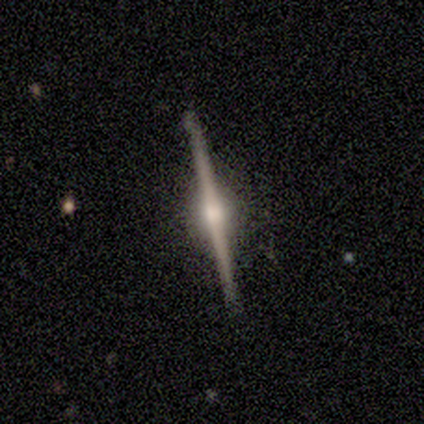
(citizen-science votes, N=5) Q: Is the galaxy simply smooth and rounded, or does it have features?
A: featured or disk — 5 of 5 (100%).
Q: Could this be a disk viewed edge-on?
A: yes — 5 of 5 (100%).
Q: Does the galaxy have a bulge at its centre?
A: rounded — 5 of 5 (100%).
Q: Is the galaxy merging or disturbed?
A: none — 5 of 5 (100%).